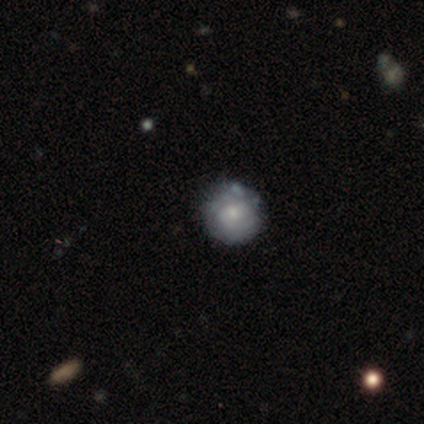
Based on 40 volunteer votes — Q: Smooth or featured?
A: featured or disk (48%); runner-up: smooth (40%)
Q: Edge-on disk?
A: no (100%)
Q: Bar?
A: no (84%); runner-up: weak (16%)
Q: Spiral arms?
A: yes (89%); runner-up: no (11%)
Q: Spiral winding?
A: tight (71%); runner-up: medium (24%)
Q: Spiral arm count?
A: 2 (41%); tied with: can't tell (41%)
Q: Bulge size?
A: moderate (58%); runner-up: small (42%)
Q: Merging?
A: none (74%); runner-up: minor disturbance (17%)